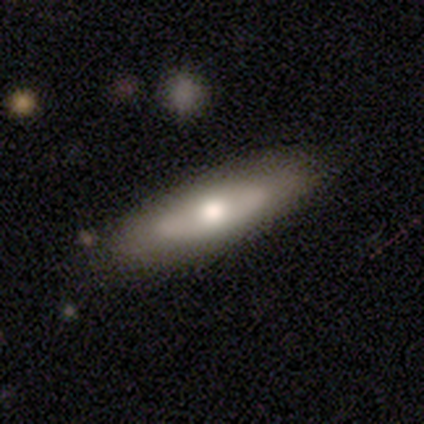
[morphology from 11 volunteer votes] type=smooth (45%, tied with featured or disk); roundness=cigar-shaped (60%); merging=none (80%).